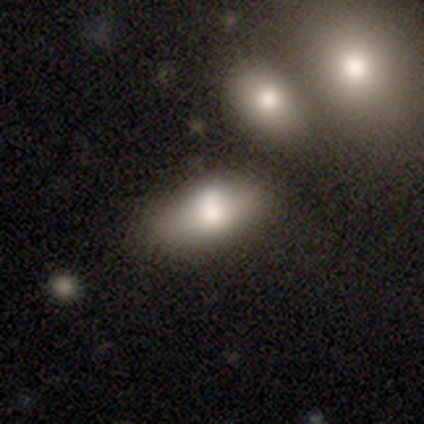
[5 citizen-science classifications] A smooth galaxy with no disk features (60%) that is in between round and cigar-shaped (100%). Merging: none (60%).